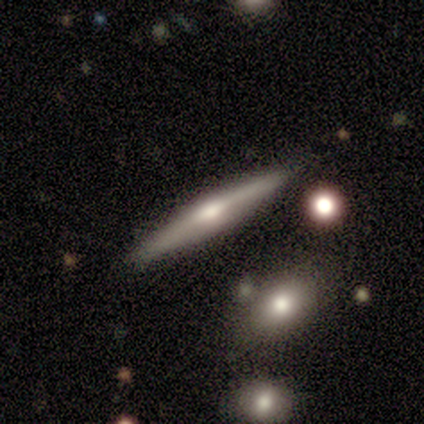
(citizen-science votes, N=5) Volunteers were most divided on "smooth or featured": featured or disk: 60%, smooth: 40%, star or artifact: 0%. More confident: edge-on disk — yes (100%); edge-on bulge — rounded (100%); merging — none (80%).